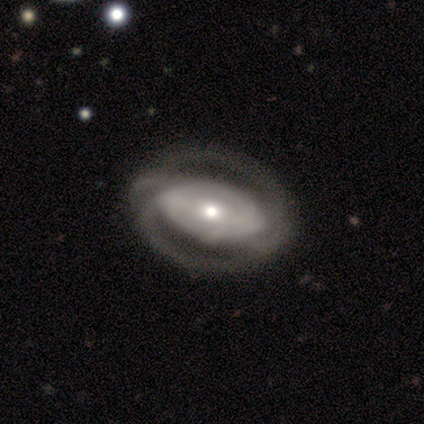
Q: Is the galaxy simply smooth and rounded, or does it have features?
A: featured or disk — 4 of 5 (80%).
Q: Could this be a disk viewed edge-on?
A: no — 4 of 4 (100%).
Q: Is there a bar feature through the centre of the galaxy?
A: strong — 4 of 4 (100%).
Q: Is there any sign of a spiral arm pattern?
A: yes — 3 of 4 (75%).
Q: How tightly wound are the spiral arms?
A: medium — 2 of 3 (67%).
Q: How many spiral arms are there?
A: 2 — 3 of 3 (100%).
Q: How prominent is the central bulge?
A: moderate — 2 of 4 (50%).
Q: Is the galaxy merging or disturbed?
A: none — 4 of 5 (80%).